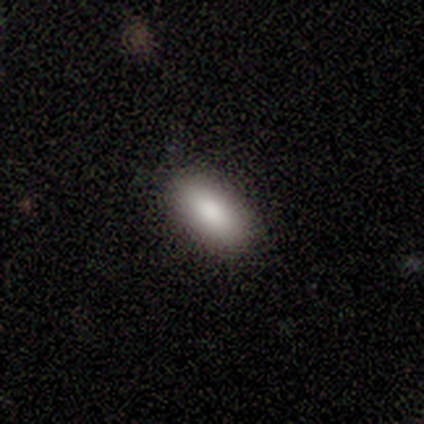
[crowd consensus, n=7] smooth 71%, featured or disk 29%, star or artifact 0%. Down the decision tree: how rounded — in between (80%); merging — none (71%).